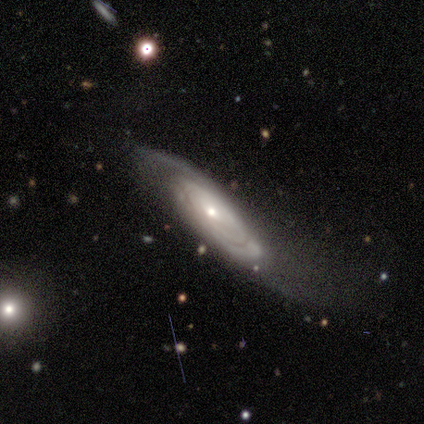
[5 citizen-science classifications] Smooth or featured: featured or disk — 100%
Edge-on disk: no — 80% (yes — 20%)
Bar: weak — 50% (tied with no — 50%)
Spiral arms: yes — 100%
Spiral winding: tight — 50% (tied with medium — 50%)
Spiral arm count: 3 — 50% (tied with can't tell — 50%)
Bulge size: moderate — 50% (tied with small — 50%)
Merging: none — 60% (minor disturbance — 20%)